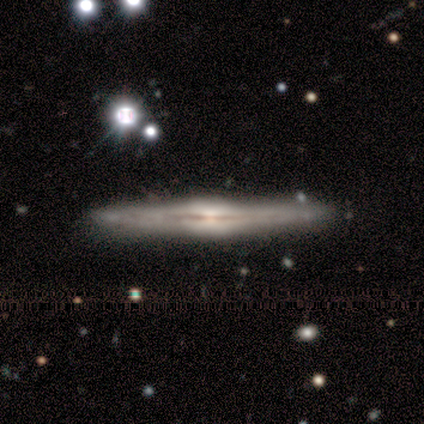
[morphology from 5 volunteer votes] Smooth or featured: featured or disk — 80% (smooth — 20%)
Edge-on disk: yes — 100%
Edge-on bulge: boxy — 50% (none — 25%)
Merging: none — 60% (minor disturbance — 20%)